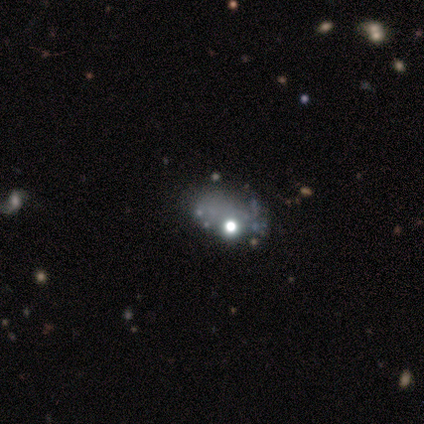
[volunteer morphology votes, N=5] A featured or disk galaxy (40%, tied with star or artifact) with no bar (100%), no spiral arms (100%) and a moderate central bulge (50%, tied with none). Merging: none (33%, tied with minor disturbance and major disturbance).